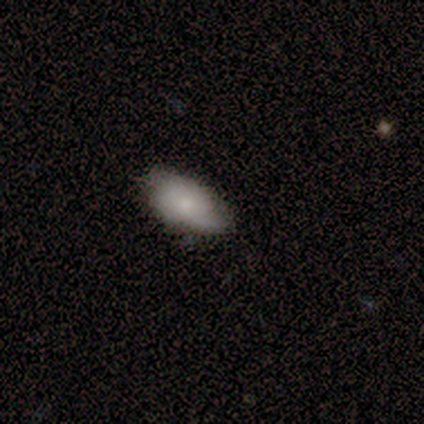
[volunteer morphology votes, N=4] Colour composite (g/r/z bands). It shows a smooth galaxy with no disk features (100%) that is in between round and cigar-shaped (75%). Merging: none (75%).